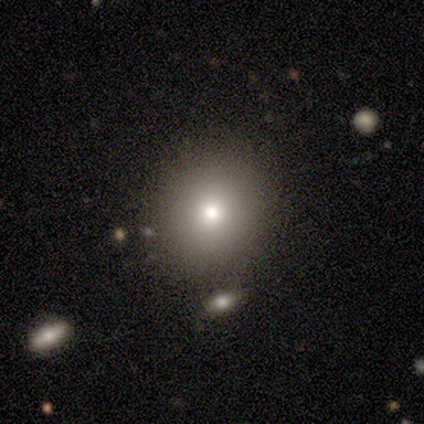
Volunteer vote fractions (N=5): Overall: smooth (80%). How rounded: round (75%). Merging: none (75%).